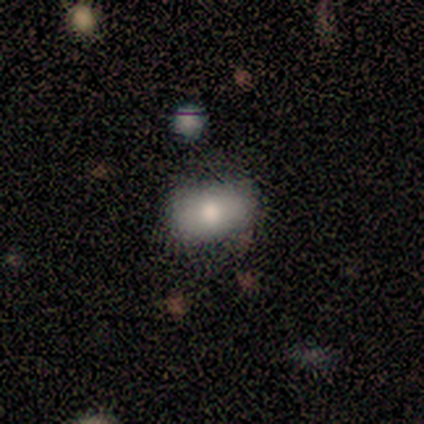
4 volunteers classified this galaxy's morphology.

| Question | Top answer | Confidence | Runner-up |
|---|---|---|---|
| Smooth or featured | smooth | 100% | — |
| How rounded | in between | 75% | round (25%) |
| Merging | none | 100% | — |